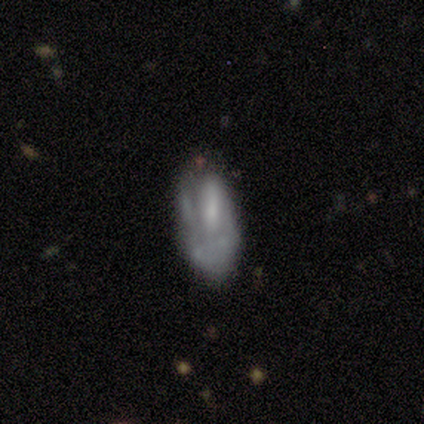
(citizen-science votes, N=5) Smooth or featured? smooth (80%)
How rounded? in between (100%)
Merging? none (60%)